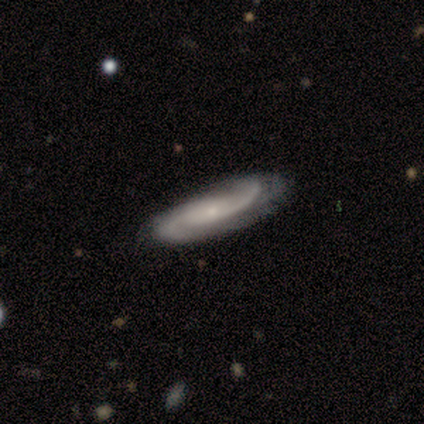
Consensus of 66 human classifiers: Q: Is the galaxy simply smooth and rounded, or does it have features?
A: featured or disk — 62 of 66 (94%).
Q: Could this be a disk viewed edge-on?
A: no — 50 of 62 (81%).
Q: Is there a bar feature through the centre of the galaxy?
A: no — 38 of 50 (76%).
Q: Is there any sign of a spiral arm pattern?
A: yes — 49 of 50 (98%).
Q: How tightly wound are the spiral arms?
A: medium — 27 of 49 (55%).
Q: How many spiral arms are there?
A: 2 — 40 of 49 (82%).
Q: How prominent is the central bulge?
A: small — 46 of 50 (92%).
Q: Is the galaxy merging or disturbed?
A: none — 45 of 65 (69%).